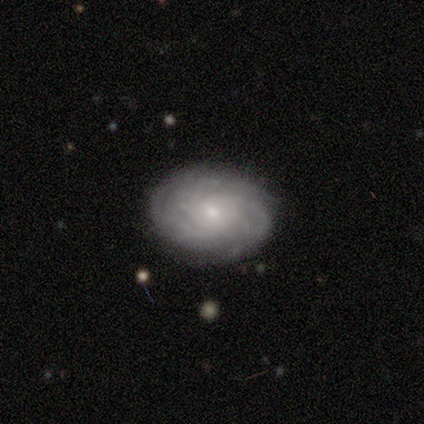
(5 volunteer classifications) Smooth or featured? 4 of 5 (80%) said featured or disk. Edge-on disk? 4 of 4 (100%) said no. Bar? 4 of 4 (100%) said no. Spiral arms? 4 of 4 (100%) said yes. Spiral winding? 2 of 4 (50%, tied with medium) said tight. Spiral arm count? 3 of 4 (75%) said can't tell. Bulge size? 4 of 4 (100%) said small. Merging? 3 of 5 (60%) said none.